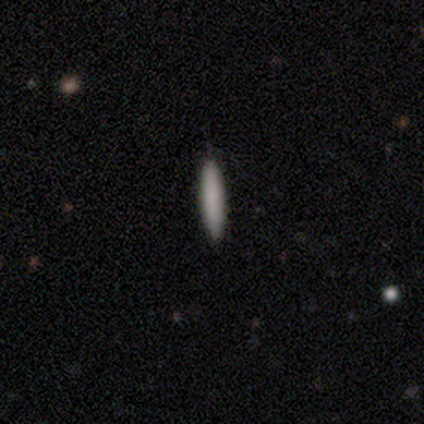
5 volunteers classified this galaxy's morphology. Smooth or featured?
  - smooth: 80% *
  - featured or disk: 20%
  - star or artifact: 0%
How rounded?
  - cigar-shaped: 75% *
  - in between: 25%
  - round: 0%
Merging?
  - none: 100% *
  - minor disturbance: 0%
  - major disturbance: 0%
  - merger: 0%